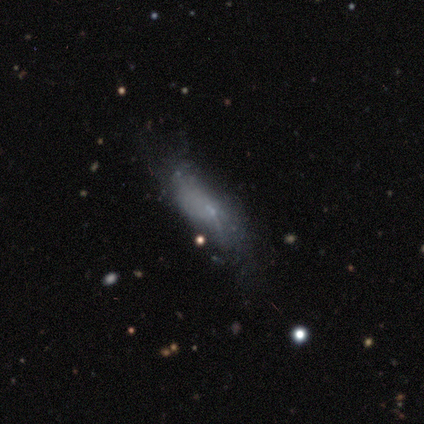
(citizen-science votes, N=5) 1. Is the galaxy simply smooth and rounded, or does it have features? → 80% smooth, 20% featured or disk, 0% star or artifact.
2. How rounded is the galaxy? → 75% in between, 25% cigar-shaped, 0% round.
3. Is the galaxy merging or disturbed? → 40% none (tied), 40% major disturbance (tied), 20% minor disturbance, 0% merger.